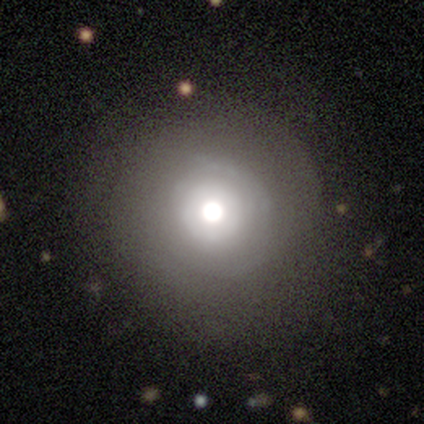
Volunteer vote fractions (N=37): Volunteers were most divided on "smooth or featured": smooth: 59%, featured or disk: 27%, star or artifact: 14%. More confident: how rounded — round (100%); merging — none (72%).